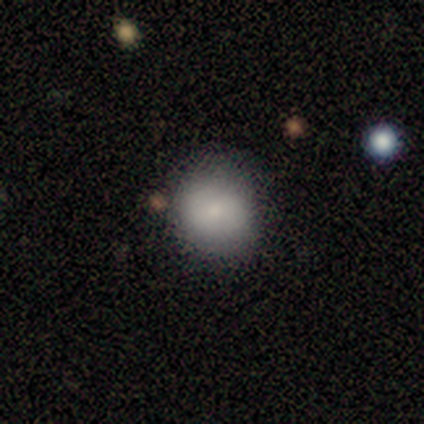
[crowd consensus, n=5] Smooth or featured? 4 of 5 (80%) said smooth. How rounded? 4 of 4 (100%) said round. Merging? 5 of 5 (100%) said none.